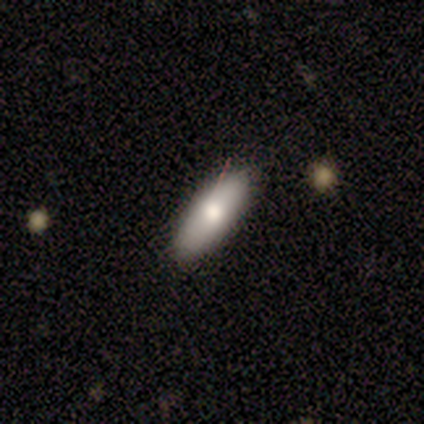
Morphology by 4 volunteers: Volunteers were most divided on "how rounded": in between: 67%, cigar-shaped: 33%, round: 0%. More confident: smooth or featured — smooth (75%); merging — none (75%).